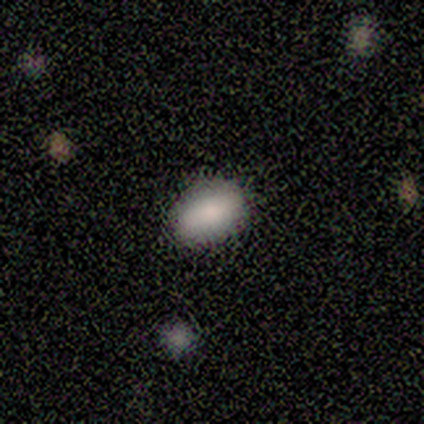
Q: Smooth or featured?
A: smooth (100%)
Q: How rounded?
A: in between (80%); runner-up: round (20%)
Q: Merging?
A: none (100%)